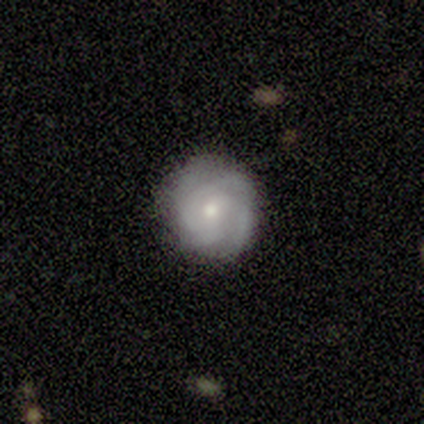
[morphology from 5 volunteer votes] featured or disk 60%, smooth 20%, star or artifact 20%. Down the decision tree: edge-on disk — no (100%); bar — no (67%); spiral arms — yes (100%); spiral arm count — 3 (33%, tied with 4 and can't tell); spiral winding — tight (100%); bulge size — small (67%); merging — none (100%).